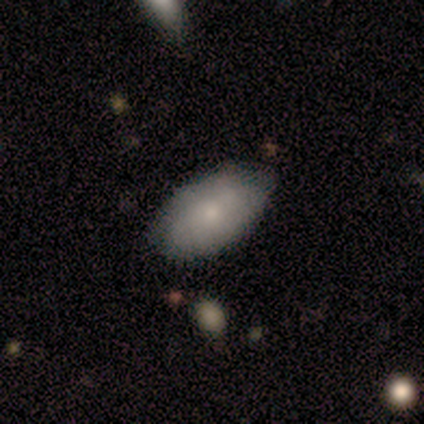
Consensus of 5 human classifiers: smooth_or_featured: smooth (p=0.80) [alt: featured or disk p=0.20]
how_rounded: in between (p=1.00)
merging: none (p=0.80) [alt: minor disturbance p=0.20]